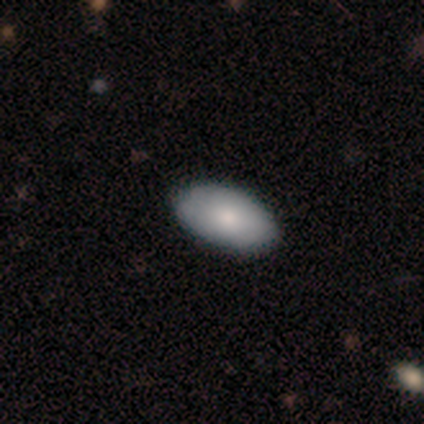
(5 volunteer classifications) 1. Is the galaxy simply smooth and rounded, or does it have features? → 80% smooth, 20% featured or disk, 0% star or artifact.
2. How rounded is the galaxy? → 100% in between, 0% round, 0% cigar-shaped.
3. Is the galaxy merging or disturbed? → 80% none, 20% minor disturbance, 0% major disturbance, 0% merger.